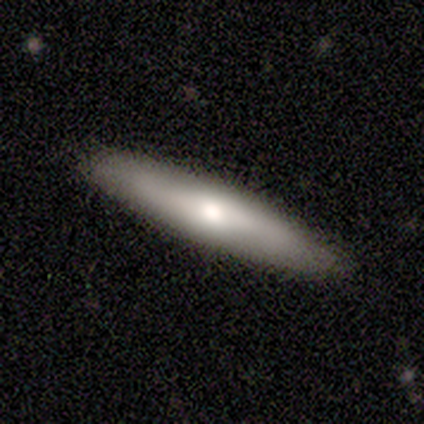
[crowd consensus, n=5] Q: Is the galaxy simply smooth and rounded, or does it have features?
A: smooth — 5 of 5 (100%).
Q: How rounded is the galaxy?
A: cigar-shaped — 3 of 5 (60%).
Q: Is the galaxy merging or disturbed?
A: none — 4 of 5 (80%).